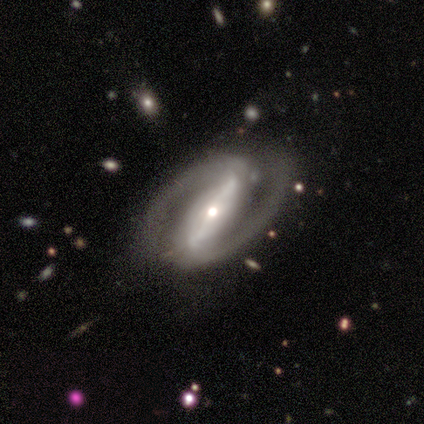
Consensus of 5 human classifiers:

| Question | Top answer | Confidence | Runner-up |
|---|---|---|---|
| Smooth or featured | featured or disk | 100% | — |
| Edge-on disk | no | 100% | — |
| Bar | strong | 100% | — |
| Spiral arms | yes | 80% | no (20%) |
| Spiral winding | tight | 50% | tied: medium (50%) |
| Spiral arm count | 2 | 100% | — |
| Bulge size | small | 60% | large (20%) |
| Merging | none | 100% | — |